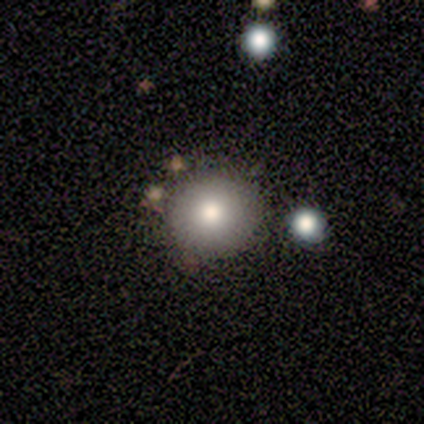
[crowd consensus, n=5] Smooth or featured? 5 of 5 (100%) said smooth. How rounded? 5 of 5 (100%) said round. Merging? 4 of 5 (80%) said none.